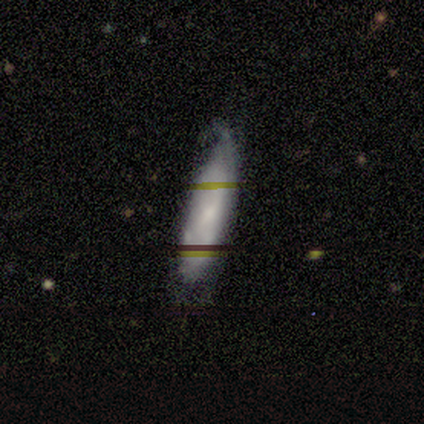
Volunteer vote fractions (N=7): Volunteers were most divided on "smooth or featured": smooth: 57%, featured or disk: 43%, star or artifact: 0%. More confident: how rounded — cigar-shaped (75%); merging — none (57%).